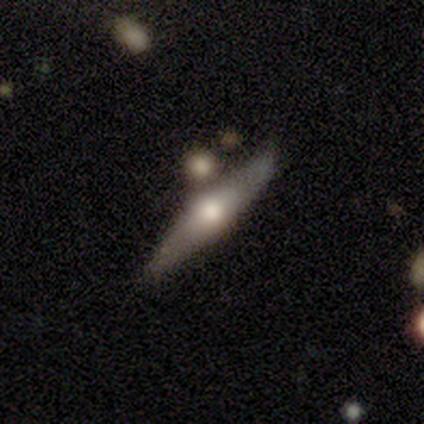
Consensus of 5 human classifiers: smooth-or-featured: featured or disk: 80% | smooth: 20% | star or artifact: 0%
  disk-edge-on: yes: 100% | no: 0%
    edge-on-bulge: rounded: 100% | boxy: 0% | none: 0%
  merging: none: 100% | minor disturbance: 0% | major disturbance: 0% | merger: 0%